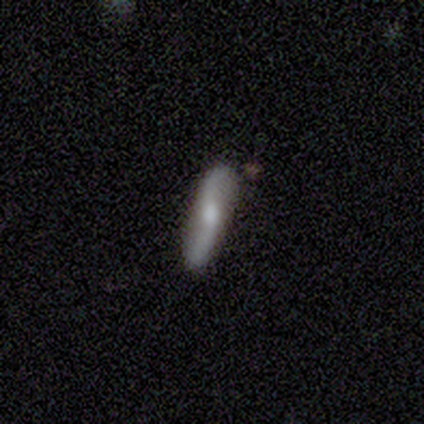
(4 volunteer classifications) Overall: smooth (50%, tied with featured or disk). How rounded: cigar-shaped (100%). Merging: none (75%).